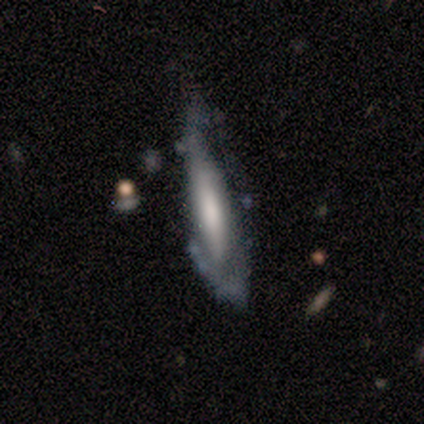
Volunteers were most divided on "merging": none: 50%, minor disturbance: 25%, major disturbance: 25%, merger: 0%. More confident: smooth or featured — smooth (75%); how rounded — cigar-shaped (67%).